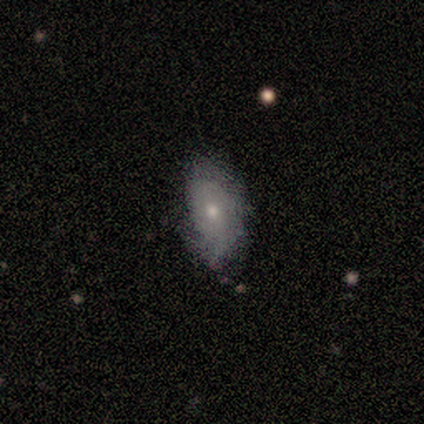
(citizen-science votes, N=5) Overall: smooth (60%; featured or disk 40%). How rounded: in between (100%). Merging: none (80%).